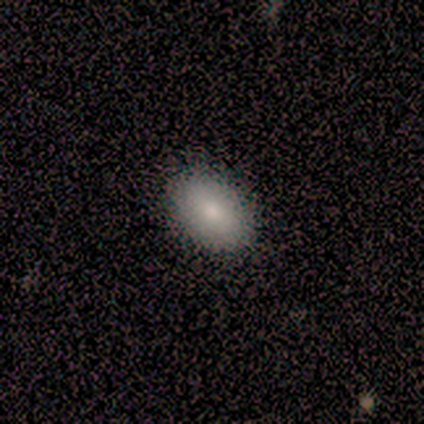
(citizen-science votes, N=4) Overall: smooth (75%). How rounded: in between (100%). Merging: minor disturbance (75%).